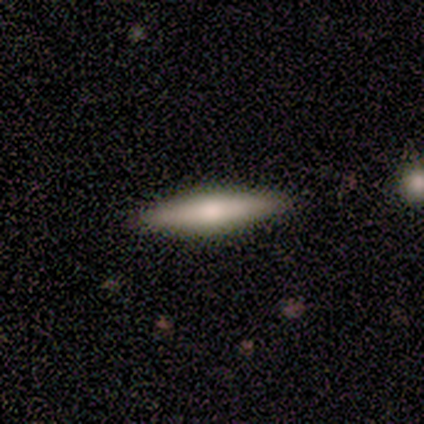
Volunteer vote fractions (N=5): smooth_or_featured: smooth (p=0.60) [alt: featured or disk p=0.40]
how_rounded: cigar-shaped (p=1.00)
merging: none (p=0.80) [alt: minor disturbance p=0.20]